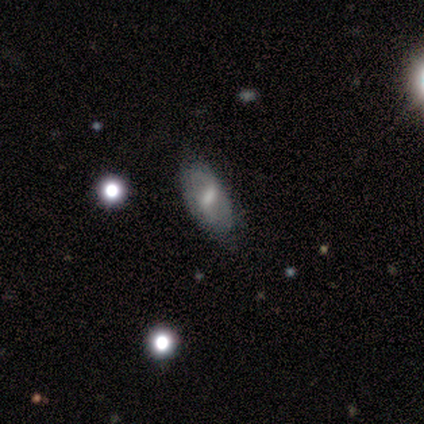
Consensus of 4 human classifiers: Smooth or featured? 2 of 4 (50%, tied with featured or disk) said smooth. How rounded? 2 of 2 (100%) said in between. Merging? 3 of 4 (75%) said none.